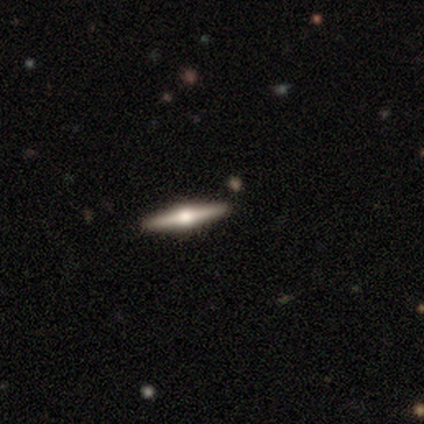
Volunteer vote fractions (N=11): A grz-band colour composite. It shows a featured or disk galaxy (82%) viewed edge-on (100%) with a rounded central bulge (100%). Merging: none (82%).